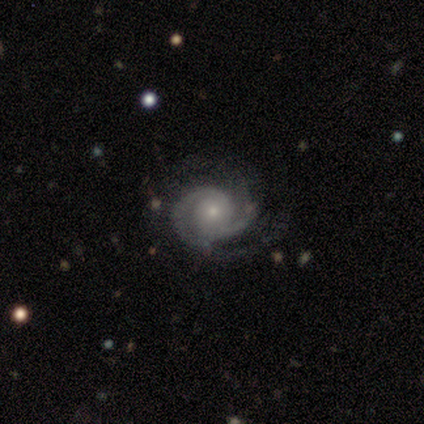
Overall: featured or disk (95%). Edge-on disk: no (100%). Bar: no (81%). Spiral arms: yes (100%). Spiral arm count: 2 (70%). Spiral winding: tight (62%; medium 27%). Bulge size: small (86%). Merging: none (82%).